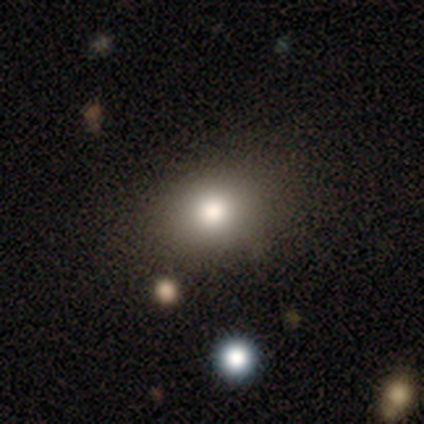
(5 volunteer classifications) Morphology: type=smooth (60%); roundness=in between (67%); merging=minor disturbance (67%).